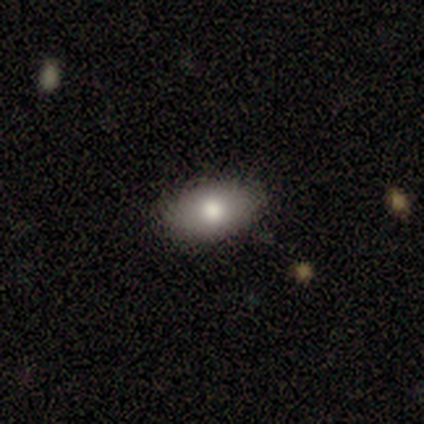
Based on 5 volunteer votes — A smooth galaxy with no disk features (60%) that is in between round and cigar-shaped (100%).

Vote fractions:
- Smooth or featured? smooth: 60% / featured or disk: 20% / star or artifact: 20%
- How rounded? in between: 100% / round: 0% / cigar-shaped: 0%
- Merging? none: 75% / minor disturbance: 25% / major disturbance: 0% / merger: 0%